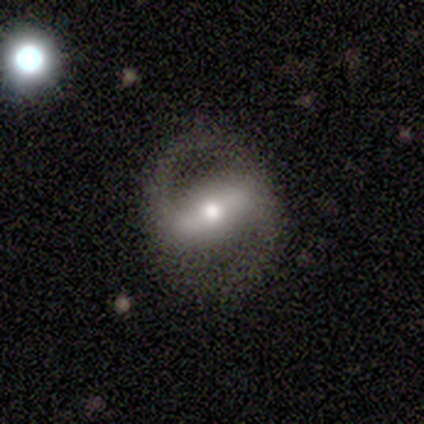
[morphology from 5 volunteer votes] Smooth or featured? featured or disk (80%)
Edge-on disk? no (100%)
Bar? strong (75%)
Spiral arms? yes (100%)
Spiral winding? medium (75%)
Spiral arm count? 2 (100%)
Bulge size? moderate (75%)
Merging? none (80%)